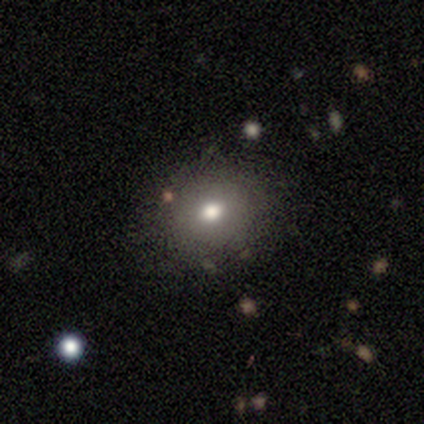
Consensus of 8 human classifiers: Smooth or featured?
  - smooth: 100% *
  - featured or disk: 0%
  - star or artifact: 0%
How rounded?
  - round: 62% *
  - in between: 38%
  - cigar-shaped: 0%
Merging?
  - none: 62% *
  - minor disturbance: 12%
  - major disturbance: 12%
  - merger: 12%